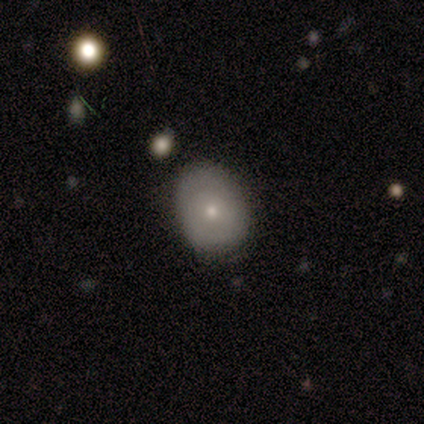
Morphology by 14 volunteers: type=smooth (79%); roundness=in between (64%); merging=none (64%).